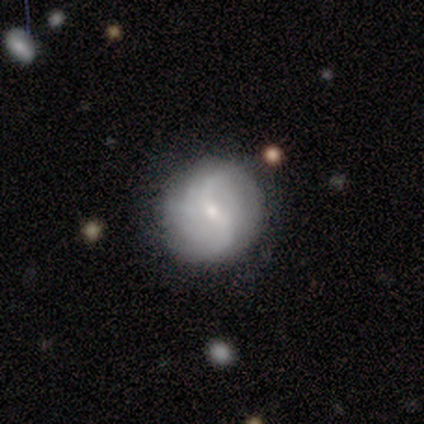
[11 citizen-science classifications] smooth_or_featured: featured or disk (p=0.73) [alt: smooth p=0.27]
disk_edge_on: no (p=1.00)
bar: weak (p=0.50) [tied with: no p=0.50]
has_spiral_arms: yes (p=0.88) [alt: no p=0.12]
spiral_winding: loose (p=0.43) [alt: tight p=0.29]
spiral_arm_count: 2 (p=0.71) [alt: 4 p=0.14]
bulge_size: small (p=0.62) [alt: moderate p=0.38]
merging: none (p=1.00)